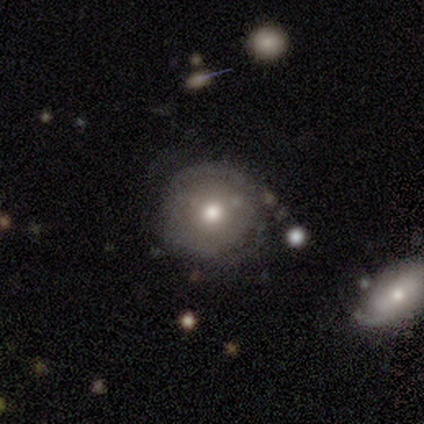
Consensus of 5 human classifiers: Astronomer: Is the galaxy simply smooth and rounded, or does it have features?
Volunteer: smooth — 40%, tied with featured or disk at 40%.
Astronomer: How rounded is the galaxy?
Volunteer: round — 100%.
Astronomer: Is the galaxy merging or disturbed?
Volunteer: none — 50%, tied with major disturbance at 50%.